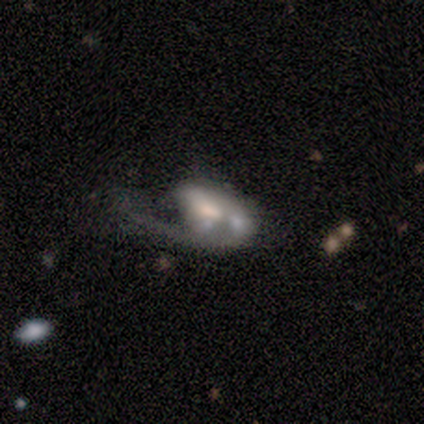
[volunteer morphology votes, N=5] Q: Smooth or featured?
A: featured or disk (80%); runner-up: smooth (20%)
Q: Edge-on disk?
A: no (100%)
Q: Bar?
A: weak (75%); runner-up: no (25%)
Q: Spiral arms?
A: yes (100%)
Q: Spiral winding?
A: loose (75%); runner-up: medium (25%)
Q: Spiral arm count?
A: can't tell (50%); runner-up: 1 (25%)
Q: Bulge size?
A: moderate (75%); runner-up: small (25%)
Q: Merging?
A: none (40%); tied with: minor disturbance (40%)